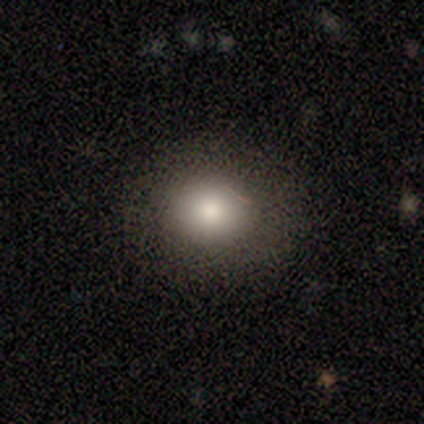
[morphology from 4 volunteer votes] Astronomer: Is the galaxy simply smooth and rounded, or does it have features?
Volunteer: smooth — 100%.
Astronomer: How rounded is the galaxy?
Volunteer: round — 75%.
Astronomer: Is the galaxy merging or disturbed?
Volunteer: none — 100%.